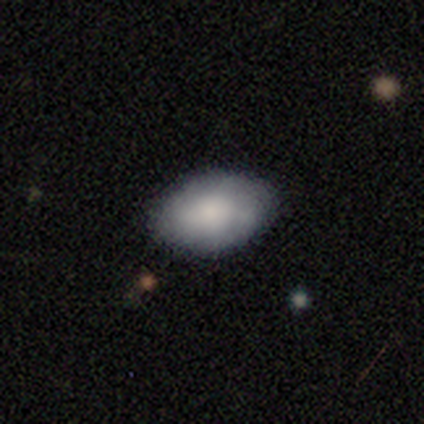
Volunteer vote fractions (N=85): Volunteers were most divided on "smooth or featured": smooth: 79%, featured or disk: 16%, star or artifact: 5%. More confident: how rounded — in between (90%); merging — none (84%).